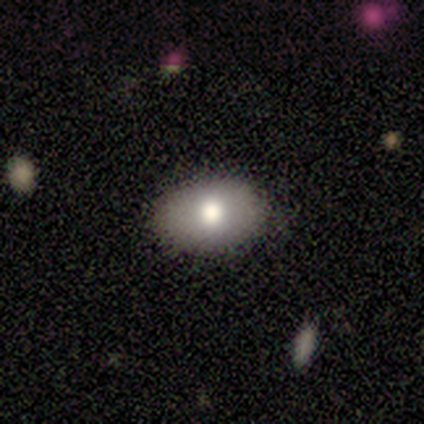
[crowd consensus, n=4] Smooth or featured: smooth — 75% (star or artifact — 25%)
How rounded: in between — 100%
Merging: none — 100%